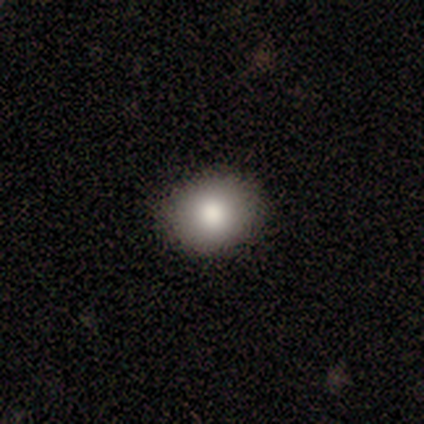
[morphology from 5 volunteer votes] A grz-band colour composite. It shows a smooth galaxy with no disk features (80%) that is round (75%). Merging: none (80%).